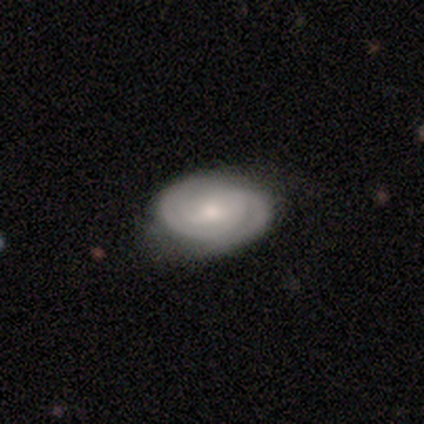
A featured or disk galaxy (76%) with no bar (45%), 2 (50%) tight (70%) spiral arms (97%) and a small central bulge (52%).

Vote fractions:
- Smooth or featured? featured or disk: 76% / smooth: 20% / star or artifact: 5%
- Edge-on disk? no: 100% / yes: 0%
- Bar? no: 45% / weak: 39% / strong: 16%
- Spiral arms? yes: 97% / no: 3%
- Spiral winding? tight: 70% / medium: 27% / loose: 3%
- Spiral arm count? 2: 50% / can't tell: 40% / 3: 10% / 1: 0% / 4: 0% / more than 4: 0%
- Bulge size? small: 52% / moderate: 35% / large: 10% / none: 3% / dominant: 0%
- Merging? none: 64% / minor disturbance: 26% / major disturbance: 10% / merger: 0%